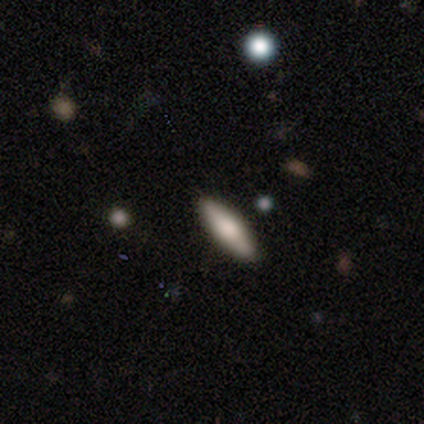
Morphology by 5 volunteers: A smooth galaxy with no disk features (60%) that is in between round and cigar-shaped (100%).

Vote fractions:
- Smooth or featured? smooth: 60% / featured or disk: 40% / star or artifact: 0%
- How rounded? in between: 100% / round: 0% / cigar-shaped: 0%
- Merging? none: 80% / minor disturbance: 20% / major disturbance: 0% / merger: 0%